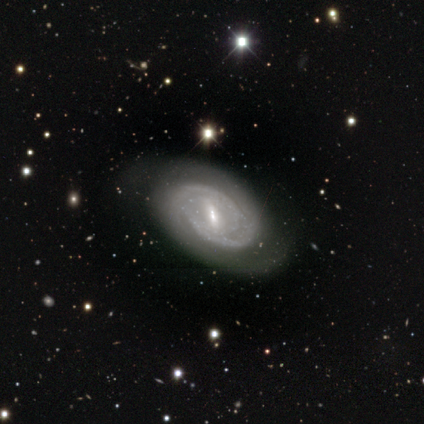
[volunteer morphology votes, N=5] smooth_or_featured: featured or disk (p=1.00)
disk_edge_on: no (p=1.00)
bar: strong (p=0.60) [alt: weak p=0.20]
has_spiral_arms: yes (p=0.80) [alt: no p=0.20]
spiral_winding: tight (p=0.50) [alt: medium p=0.25]
spiral_arm_count: 2 (p=0.50) [tied with: can't tell p=0.50]
bulge_size: small (p=0.60) [alt: moderate p=0.40]
merging: none (p=1.00)